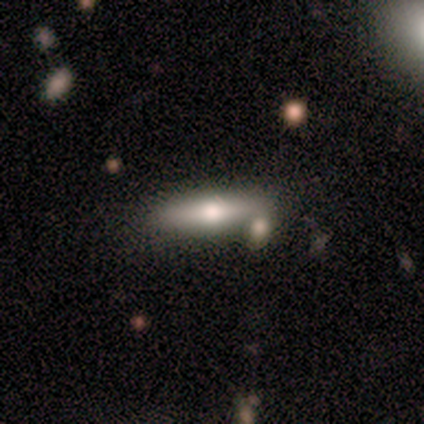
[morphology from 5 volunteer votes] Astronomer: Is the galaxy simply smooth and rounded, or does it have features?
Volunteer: featured or disk — 60% (runner-up: smooth, 40%).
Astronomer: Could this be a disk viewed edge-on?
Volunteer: yes — 67%.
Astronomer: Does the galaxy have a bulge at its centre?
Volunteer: rounded — 100%.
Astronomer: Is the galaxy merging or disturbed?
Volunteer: none — 40%, tied with minor disturbance at 40%.